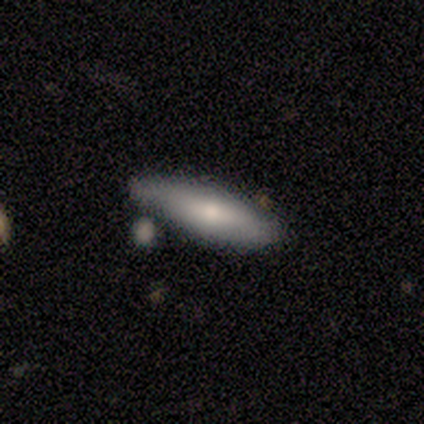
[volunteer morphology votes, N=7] Volunteers were most divided on "merging": none: 57%, minor disturbance: 29%, merger: 14%, major disturbance: 0%. More confident: smooth or featured — smooth (86%); how rounded — cigar-shaped (83%).